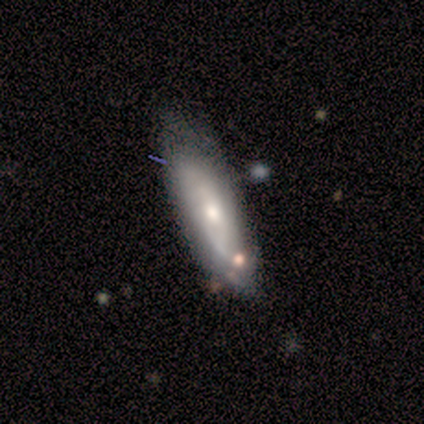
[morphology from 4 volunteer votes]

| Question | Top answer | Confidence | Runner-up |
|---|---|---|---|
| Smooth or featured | featured or disk | 50% | tied: star or artifact (50%) |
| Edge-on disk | yes | 50% | tied: no (50%) |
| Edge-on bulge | rounded | 100% | — |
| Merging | minor disturbance | 100% | — |